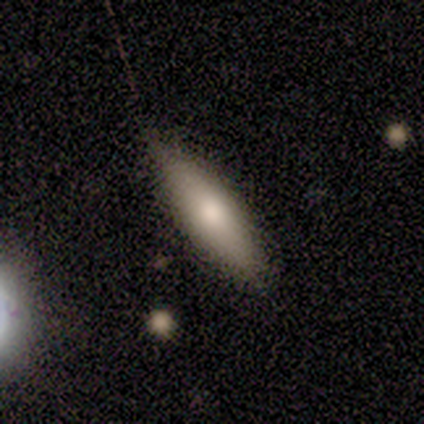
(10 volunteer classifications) Smooth or featured? 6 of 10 (60%) said smooth. How rounded? 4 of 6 (67%) said cigar-shaped. Merging? 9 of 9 (100%) said none.